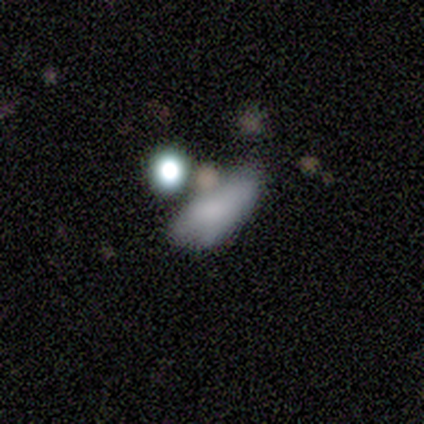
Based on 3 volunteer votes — This appears to be a smooth galaxy with no disk features (33%, tied with featured or disk and star or artifact) that is cigar-shaped (100%). Merging: none (50%, tied with major disturbance).